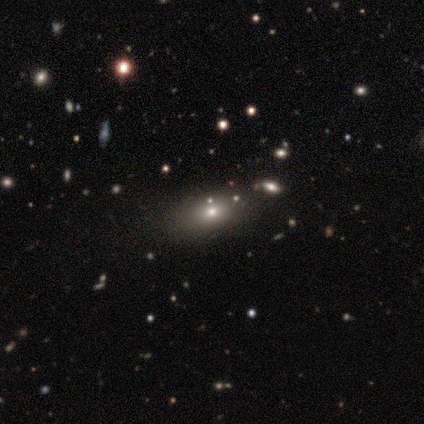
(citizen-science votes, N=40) This is possibly a smooth galaxy (48%). How rounded: clearly in between (84%). Merging: clearly none (81%).